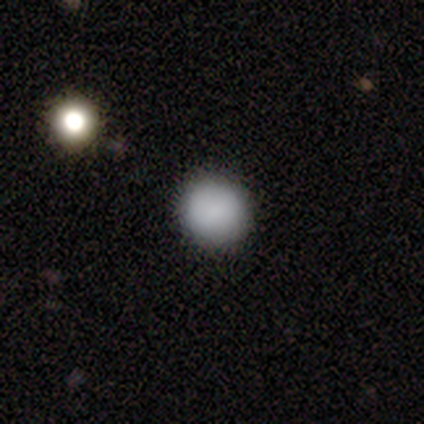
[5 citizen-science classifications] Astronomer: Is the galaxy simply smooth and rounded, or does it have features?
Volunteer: smooth — 80%.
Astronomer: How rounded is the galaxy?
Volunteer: round — 100%.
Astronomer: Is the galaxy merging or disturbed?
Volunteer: none — 100%.